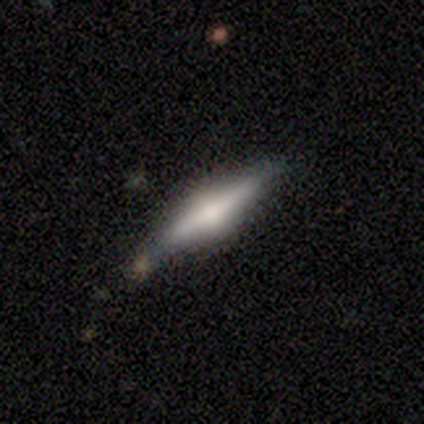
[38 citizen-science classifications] Q: Smooth or featured?
A: featured or disk (68%); runner-up: smooth (26%)
Q: Edge-on disk?
A: yes (96%); runner-up: no (4%)
Q: Edge-on bulge?
A: rounded (92%); runner-up: boxy (4%)
Q: Merging?
A: none (83%); runner-up: minor disturbance (11%)